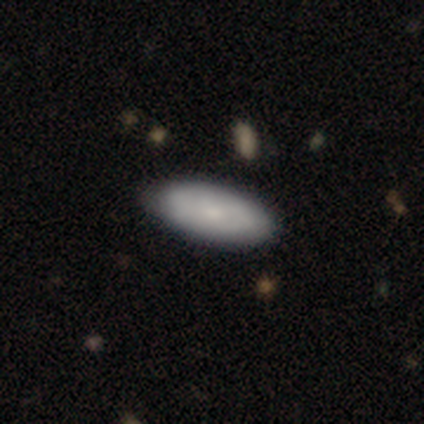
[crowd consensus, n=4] This appears to be a smooth galaxy with no disk features (50%, tied with featured or disk) that is in between round and cigar-shaped (50%, tied with cigar-shaped). Merging: none (75%).